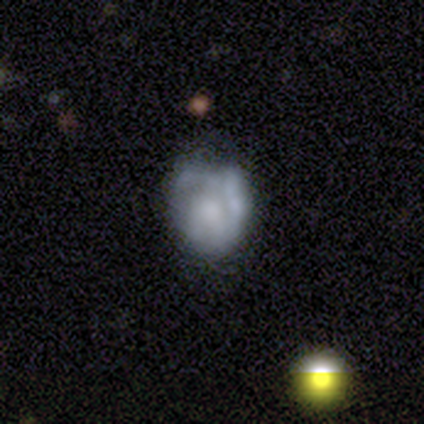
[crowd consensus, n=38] Overall: featured or disk (61%; smooth 32%). Edge-on disk: no (100%). Bar: no (96%). Spiral arms: no (61%; yes 39%). Bulge size: moderate (35%, tied with none). Merging: minor disturbance (49%; none 34%).